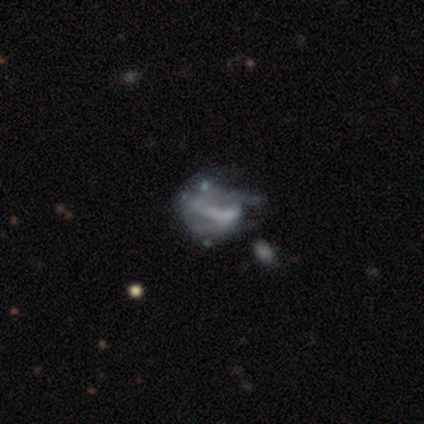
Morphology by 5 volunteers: This is likely a featured or disk galaxy (60%). It is clearly not viewed edge-on (100%). Bar: marginally strong (33%, tied with weak and no). Spiral arm pattern: clearly no (100%). Central bulge: clearly none (100%). Merging: marginally none (40%, tied with major disturbance).